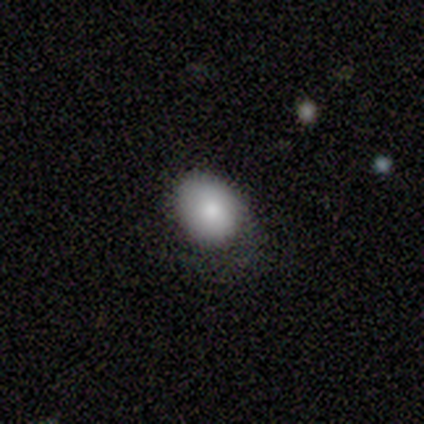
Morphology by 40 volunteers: smooth_or_featured: smooth (p=0.85) [alt: featured or disk p=0.10]
how_rounded: in between (p=0.62) [alt: round p=0.38]
merging: none (p=0.53) [alt: minor disturbance p=0.32]